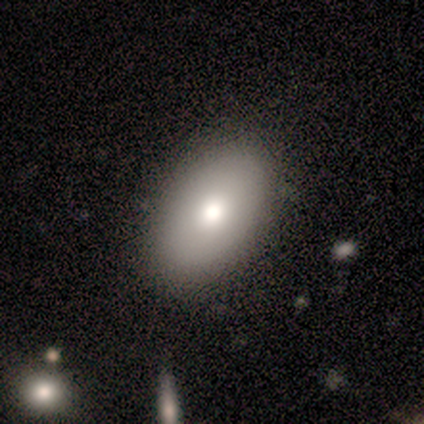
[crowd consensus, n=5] Volunteers were most divided on "smooth or featured" (2-way tie): smooth: 40%, star or artifact: 40%, featured or disk: 20%. More confident: how rounded — in between (100%); merging — none (100%).